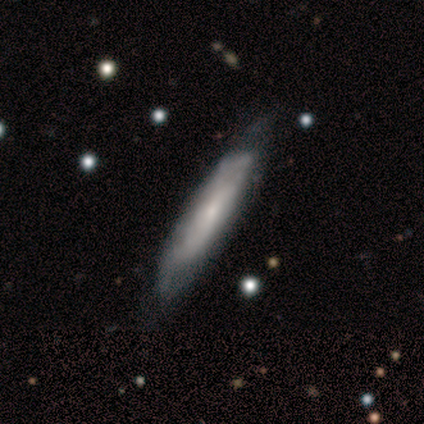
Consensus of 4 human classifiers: Smooth or featured: smooth — 50% (tied with featured or disk — 50%)
How rounded: cigar-shaped — 100%
Merging: none — 50% (tied with minor disturbance — 50%)